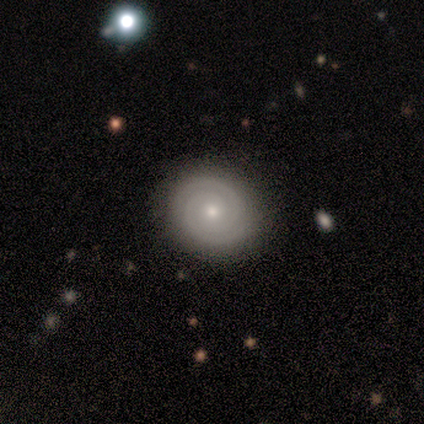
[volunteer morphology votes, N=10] Volunteers were most divided on "bar": no: 71%, weak: 29%, strong: 0%. More confident: spiral arms — yes (100%); spiral winding — tight (100%); spiral arm count — 2 (100%); merging — none (90%); edge-on disk — no (88%); bulge size — small (86%); smooth or featured — featured or disk (80%).